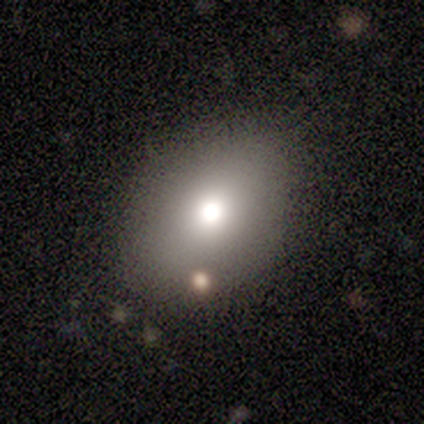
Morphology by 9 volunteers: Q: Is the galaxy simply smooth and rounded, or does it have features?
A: smooth — 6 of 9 (67%).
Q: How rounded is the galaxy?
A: in between — 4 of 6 (67%).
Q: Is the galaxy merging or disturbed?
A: none — 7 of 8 (88%).